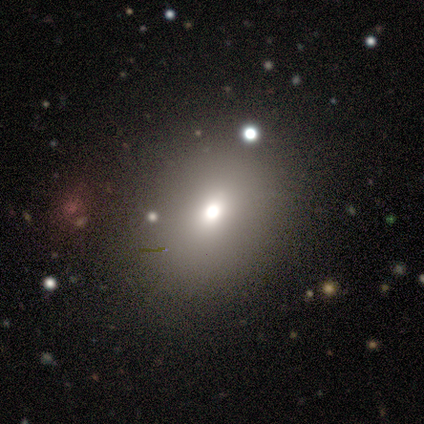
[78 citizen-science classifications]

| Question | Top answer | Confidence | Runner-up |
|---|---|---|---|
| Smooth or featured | smooth | 72% | star or artifact (19%) |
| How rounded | round | 50% | tied: in between (50%) |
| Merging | none | 49% | minor disturbance (10%) |